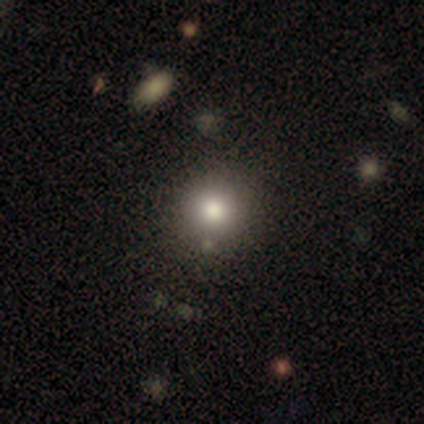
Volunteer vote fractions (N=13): A smooth galaxy with no disk features (77%) that is round (100%). Merging: none (80%).